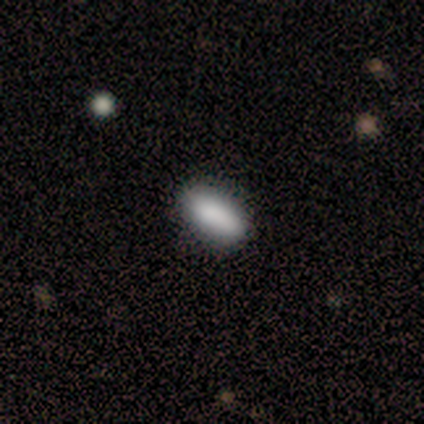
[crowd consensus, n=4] This appears to be a smooth galaxy with no disk features (100%) that is in between round and cigar-shaped (75%). Merging: none (100%).